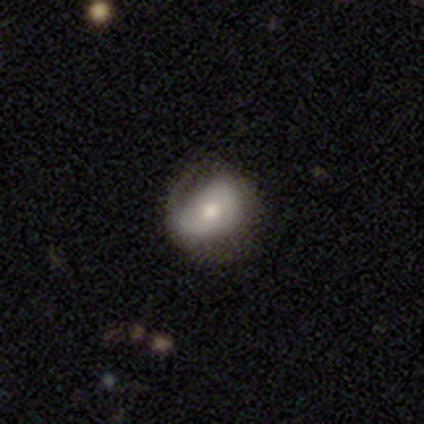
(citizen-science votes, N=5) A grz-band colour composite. It shows a smooth galaxy with no disk features (60%) that is round (67%). Merging: minor disturbance (60%).